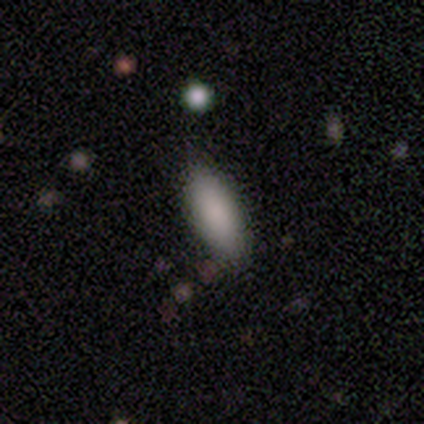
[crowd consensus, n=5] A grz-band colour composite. It shows a smooth galaxy with no disk features (100%) that is in between round and cigar-shaped (100%). Merging: none (80%).